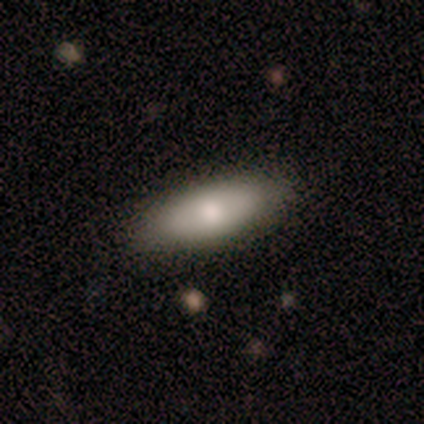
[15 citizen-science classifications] Smooth or featured?
  - smooth: 93% *
  - featured or disk: 7%
  - star or artifact: 0%
How rounded?
  - in between: 57% *
  - cigar-shaped: 43%
  - round: 0%
Merging?
  - none: 93% *
  - minor disturbance: 7%
  - major disturbance: 0%
  - merger: 0%